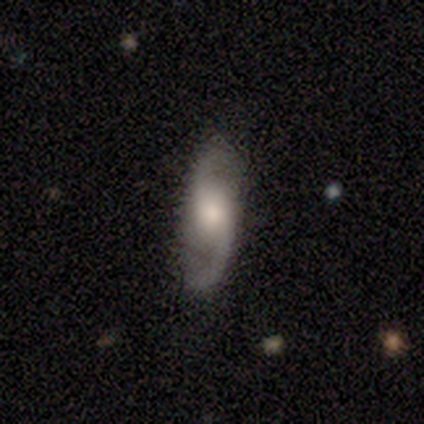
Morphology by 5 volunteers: Q: Smooth or featured?
A: featured or disk (80%); runner-up: smooth (20%)
Q: Edge-on disk?
A: no (75%); runner-up: yes (25%)
Q: Bar?
A: no (67%); runner-up: weak (33%)
Q: Spiral arms?
A: yes (100%)
Q: Spiral winding?
A: loose (67%); runner-up: medium (33%)
Q: Spiral arm count?
A: 2 (100%)
Q: Bulge size?
A: small (67%); runner-up: moderate (33%)
Q: Merging?
A: none (100%)